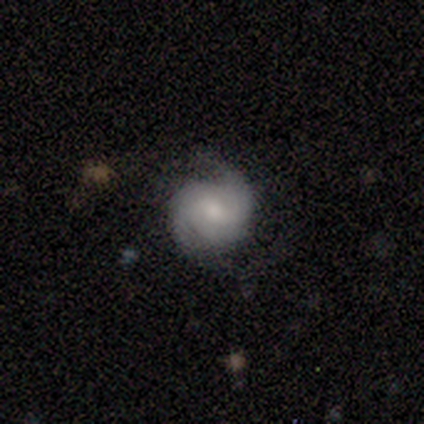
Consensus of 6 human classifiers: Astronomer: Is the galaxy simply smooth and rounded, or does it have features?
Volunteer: featured or disk — 83%.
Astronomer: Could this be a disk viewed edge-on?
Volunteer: no — 100%.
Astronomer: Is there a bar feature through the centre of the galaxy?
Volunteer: no — 80%.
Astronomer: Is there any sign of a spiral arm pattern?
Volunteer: yes — 100%.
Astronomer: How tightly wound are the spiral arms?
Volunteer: tight — 80%.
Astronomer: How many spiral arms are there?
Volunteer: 2 — 100%.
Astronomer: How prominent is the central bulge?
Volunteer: moderate — 60% (runner-up: small, 40%).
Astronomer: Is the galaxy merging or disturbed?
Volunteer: none — 100%.